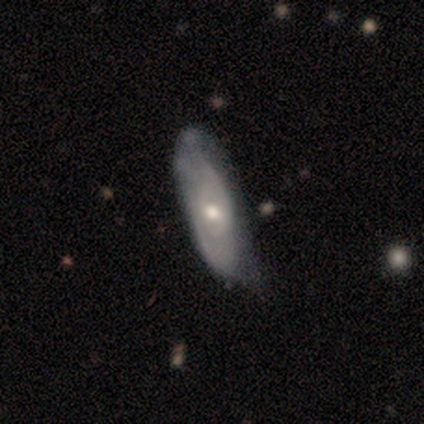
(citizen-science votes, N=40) Morphology: type=featured or disk (68%); edge-on=no (74%); bar=no (75%); spiral arms=yes (65%); winding=tight (46%, tied with medium); arm count=2 (62%); bulge=moderate (75%); merging=none (50%).